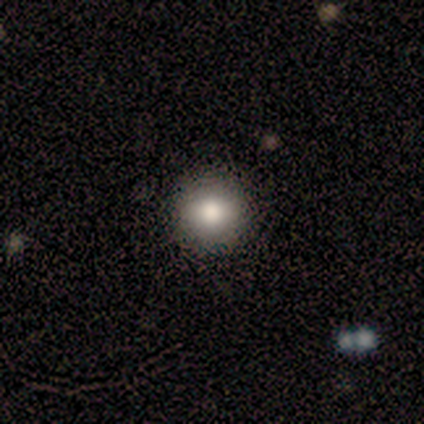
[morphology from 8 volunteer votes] Q: Smooth or featured?
A: smooth (62%); runner-up: featured or disk (38%)
Q: How rounded?
A: round (100%)
Q: Merging?
A: none (88%); runner-up: minor disturbance (12%)